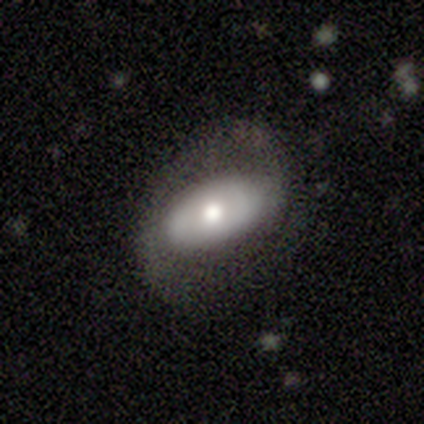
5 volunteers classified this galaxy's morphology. type=featured or disk (80%); edge-on=no (100%); bar=no (75%); spiral arms=no (75%); bulge=large (50%); merging=none (80%).